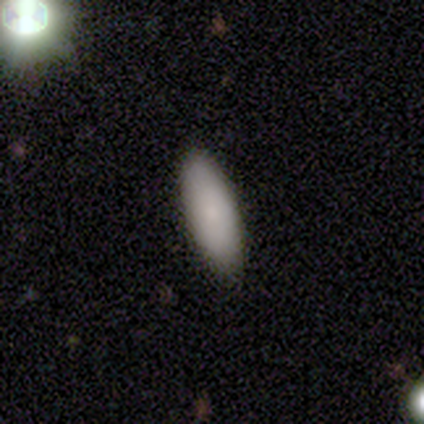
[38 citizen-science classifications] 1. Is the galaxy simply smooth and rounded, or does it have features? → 74% smooth, 21% featured or disk, 5% star or artifact.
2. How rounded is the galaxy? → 89% in between, 7% cigar-shaped, 4% round.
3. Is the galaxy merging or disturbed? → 89% none, 8% minor disturbance, 3% major disturbance, 0% merger.